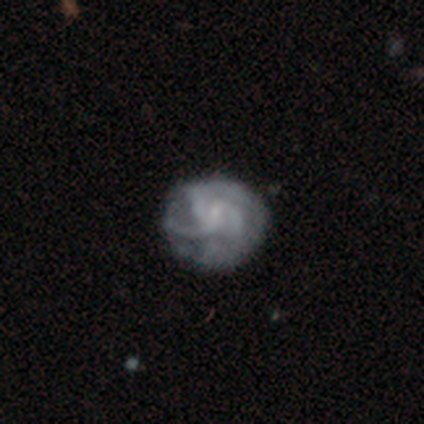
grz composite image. It shows a featured or disk galaxy (60%) with no bar (100%), 3 (67%) tight (67%) spiral arms (100%) and a small central bulge (67%). Merging: none (50%, tied with minor disturbance).